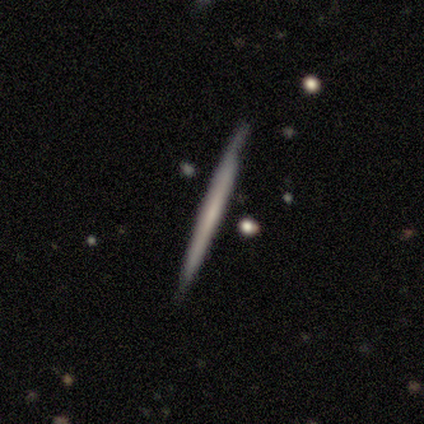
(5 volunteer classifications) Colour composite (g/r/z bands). It shows a featured or disk galaxy (60%) viewed edge-on (100%) with no central bulge (100%). Merging: none (100%).